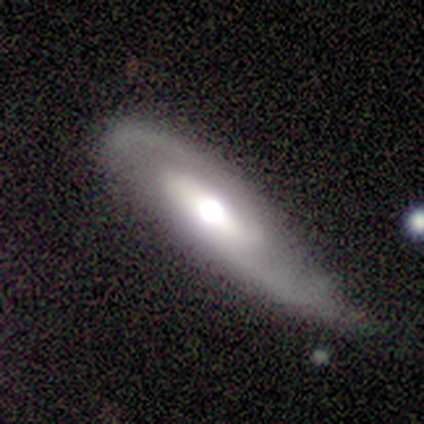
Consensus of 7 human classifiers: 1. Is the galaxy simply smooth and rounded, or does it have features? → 86% featured or disk, 14% smooth, 0% star or artifact.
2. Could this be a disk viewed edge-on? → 83% no, 17% yes.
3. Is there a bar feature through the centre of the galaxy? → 40% weak (tied), 40% no (tied), 20% strong.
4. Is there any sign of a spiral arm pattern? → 80% yes, 20% no.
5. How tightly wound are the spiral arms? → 50% medium (tied), 50% loose (tied), 0% tight.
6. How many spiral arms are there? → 100% 2, 0% 1, 0% 3, 0% 4, 0% more than 4, 0% can't tell.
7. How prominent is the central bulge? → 40% moderate, 20% dominant, 20% large, 20% small, 0% none.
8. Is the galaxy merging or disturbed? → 57% none, 29% minor disturbance, 14% major disturbance, 0% merger.